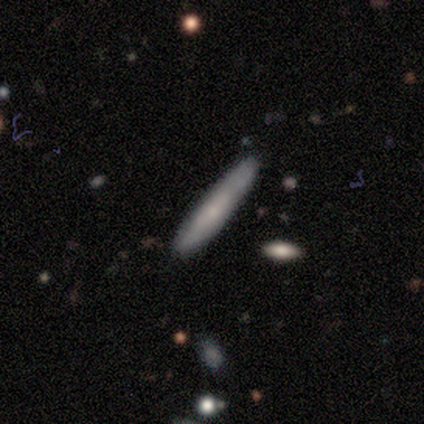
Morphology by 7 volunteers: Smooth or featured? 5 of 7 (71%) said smooth. How rounded? 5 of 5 (100%) said cigar-shaped. Merging? 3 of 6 (50%) said minor disturbance.